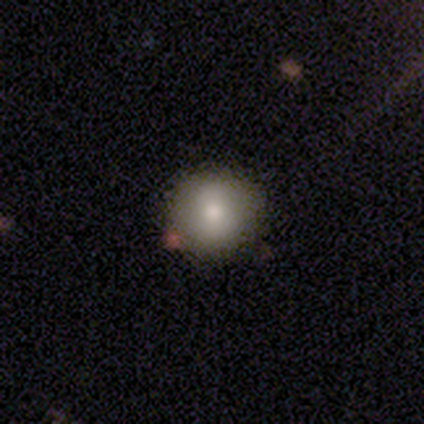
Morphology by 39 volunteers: Overall: smooth (82%). How rounded: round (94%). Merging: none (77%).